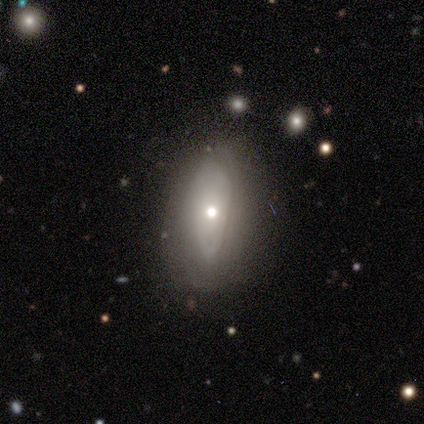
Volunteers were most divided on "smooth or featured": smooth: 56%, featured or disk: 41%, star or artifact: 3%. More confident: how rounded — in between (86%); merging — none (63%).